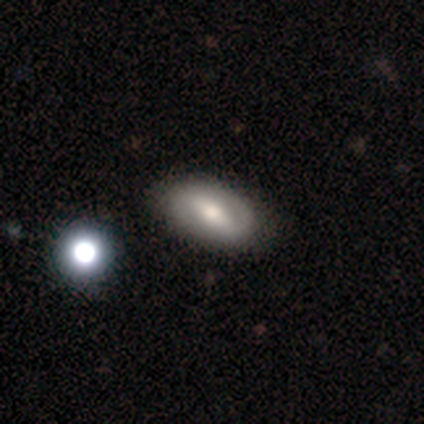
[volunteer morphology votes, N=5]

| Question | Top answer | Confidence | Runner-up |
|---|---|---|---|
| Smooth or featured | featured or disk | 80% | smooth (20%) |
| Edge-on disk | no | 100% | — |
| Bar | strong | 75% | weak (25%) |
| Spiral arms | yes | 100% | — |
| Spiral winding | tight | 50% | medium (25%) |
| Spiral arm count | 2 | 50% | tied: can't tell (50%) |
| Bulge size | moderate | 75% | large (25%) |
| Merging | none | 80% | major disturbance (20%) |